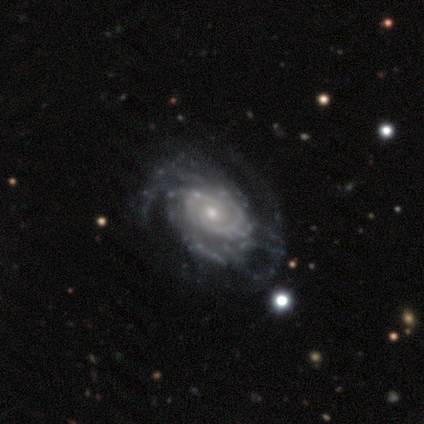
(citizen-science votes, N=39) Smooth or featured? featured or disk (95%)
Edge-on disk? no (100%)
Bar? no (92%)
Spiral arms? yes (95%)
Spiral winding? tight (66%)
Spiral arm count? 2 (31%, tied with can't tell)
Bulge size? small (57%)
Merging? none (68%)